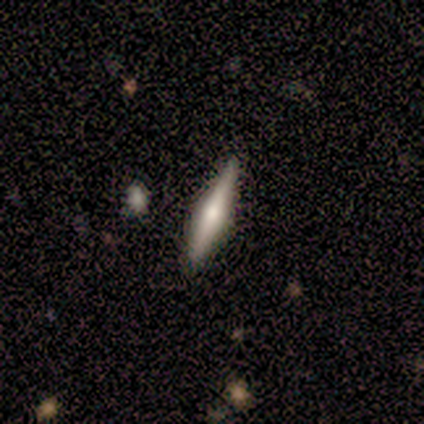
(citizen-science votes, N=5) Smooth or featured: featured or disk — 60% (smooth — 40%)
Edge-on disk: yes — 100%
Edge-on bulge: rounded — 67% (none — 33%)
Merging: none — 80% (minor disturbance — 20%)